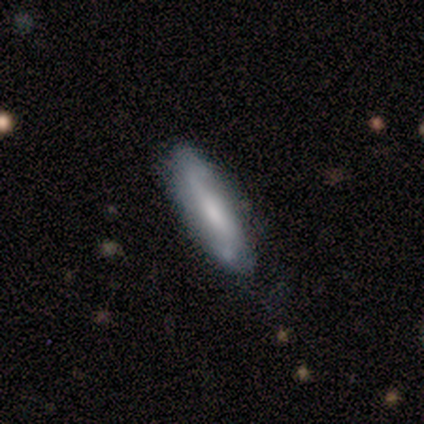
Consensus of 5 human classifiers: This is clearly a featured or disk galaxy (80%). It is likely not viewed edge-on (75%). Bar: likely weak (67%). Spiral arm pattern: clearly yes (100%). Spiral arm count: likely 2 (67%). Spiral winding: marginally tight (33%, tied with medium and loose). Central bulge: likely moderate (67%). Merging: clearly none (100%).